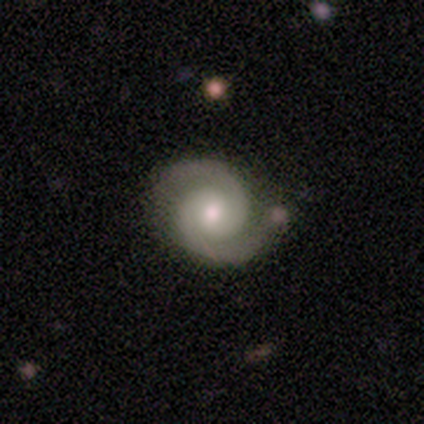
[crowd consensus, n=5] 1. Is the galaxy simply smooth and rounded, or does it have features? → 80% featured or disk, 20% star or artifact, 0% smooth.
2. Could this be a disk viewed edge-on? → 100% no, 0% yes.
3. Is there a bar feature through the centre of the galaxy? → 50% strong (tied), 50% no (tied), 0% weak.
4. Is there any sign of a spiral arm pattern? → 100% yes, 0% no.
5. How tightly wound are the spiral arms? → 75% medium, 25% tight, 0% loose.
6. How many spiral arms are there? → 100% 2, 0% 1, 0% 3, 0% 4, 0% more than 4, 0% can't tell.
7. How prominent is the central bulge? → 75% moderate, 25% small, 0% dominant, 0% large, 0% none.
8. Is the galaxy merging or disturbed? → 50% none (tied), 50% minor disturbance (tied), 0% major disturbance, 0% merger.